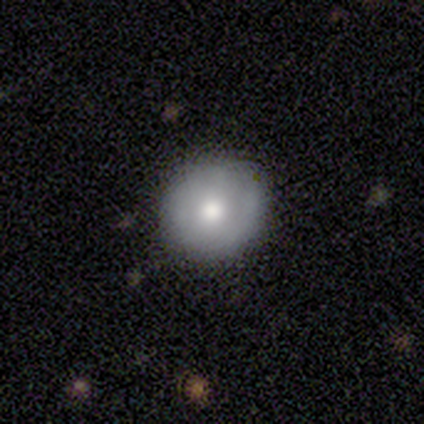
Q: Smooth or featured?
A: smooth (40%); tied with: featured or disk (40%)
Q: How rounded?
A: round (100%)
Q: Merging?
A: none (100%)